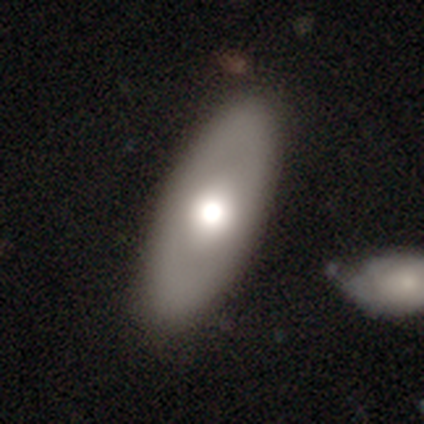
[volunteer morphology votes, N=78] Overall: smooth (65%; featured or disk 32%). How rounded: in between (94%). Merging: none (39%; merger 11%).